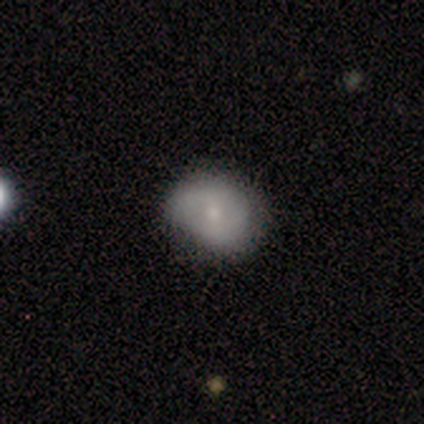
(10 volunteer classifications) Smooth or featured: smooth — 70% (featured or disk — 20%)
How rounded: in between — 57% (round — 43%)
Merging: none — 89% (minor disturbance — 11%)